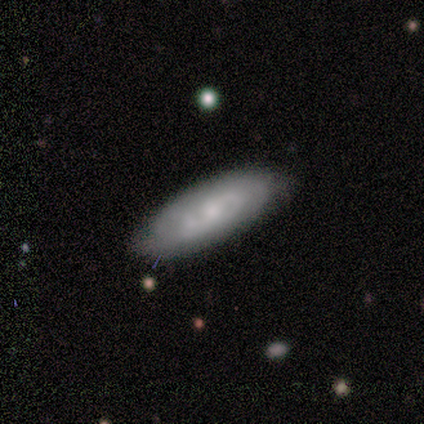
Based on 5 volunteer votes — Smooth or featured? featured or disk (60%)
Edge-on disk? no (100%)
Bar? no (100%)
Spiral arms? yes (100%)
Spiral winding? tight (67%)
Spiral arm count? 2 (67%)
Bulge size? small (67%)
Merging? none (80%)